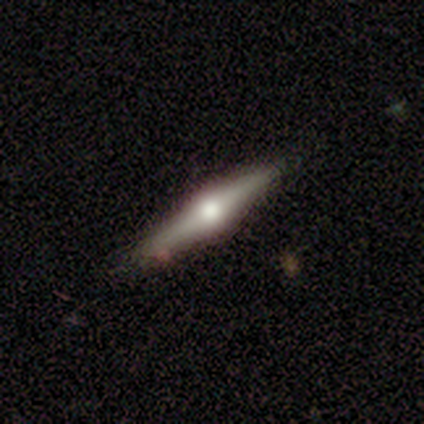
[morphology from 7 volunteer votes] A featured or disk galaxy (86%) viewed edge-on (100%) with a rounded central bulge (100%). Merging: none (86%).